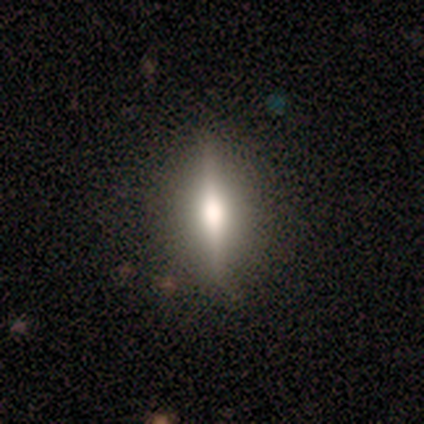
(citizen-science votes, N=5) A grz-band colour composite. It shows a featured or disk galaxy (80%) viewed edge-on (100%) with a rounded central bulge (75%). Merging: none (100%).